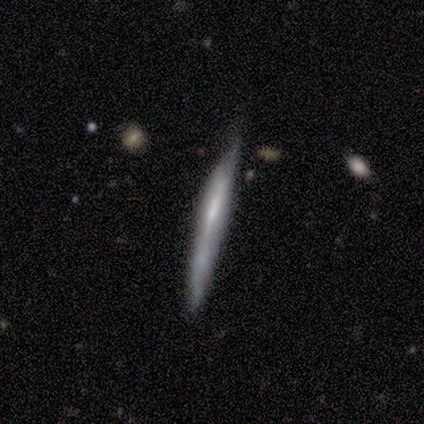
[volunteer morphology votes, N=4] A featured or disk galaxy (100%) viewed edge-on (100%) with no central bulge (75%).

Vote fractions:
- Smooth or featured? featured or disk: 100% / smooth: 0% / star or artifact: 0%
- Edge-on disk? yes: 100% / no: 0%
- Edge-on bulge? none: 75% / boxy: 25% / rounded: 0%
- Merging? none: 50% (tied) / minor disturbance: 50% (tied) / major disturbance: 0% / merger: 0%